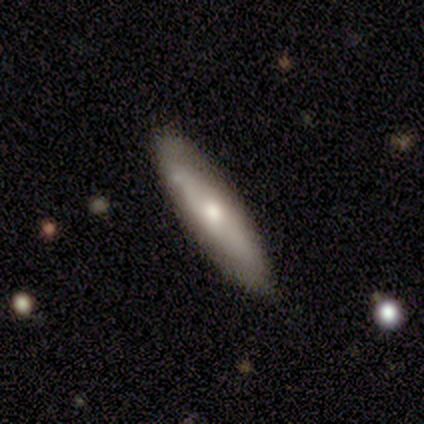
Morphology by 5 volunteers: A smooth galaxy with no disk features (60%) that is cigar-shaped (67%).

Vote fractions:
- Smooth or featured? smooth: 60% / featured or disk: 40% / star or artifact: 0%
- How rounded? cigar-shaped: 67% / in between: 33% / round: 0%
- Merging? none: 80% / major disturbance: 20% / minor disturbance: 0% / merger: 0%